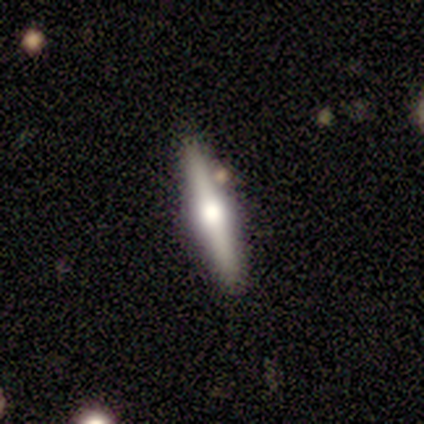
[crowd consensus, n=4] Q: Smooth or featured?
A: featured or disk (75%); runner-up: smooth (25%)
Q: Edge-on disk?
A: yes (100%)
Q: Edge-on bulge?
A: rounded (100%)
Q: Merging?
A: none (100%)